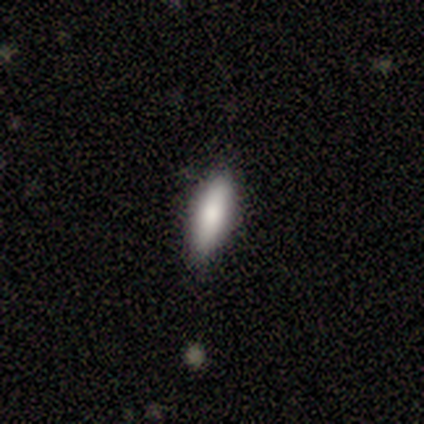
A smooth galaxy with no disk features (84%) that is cigar-shaped (55%). Merging: none (76%).